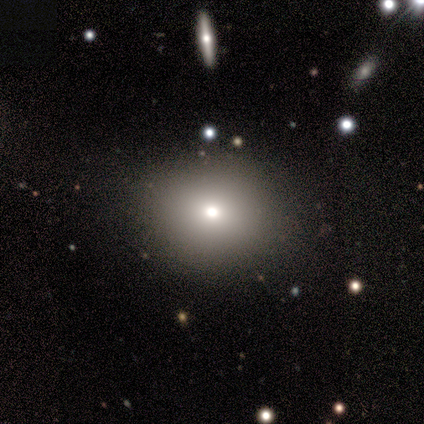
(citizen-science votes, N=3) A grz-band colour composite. It shows a smooth galaxy with no disk features (100%) that is round (100%). Merging: none (100%).